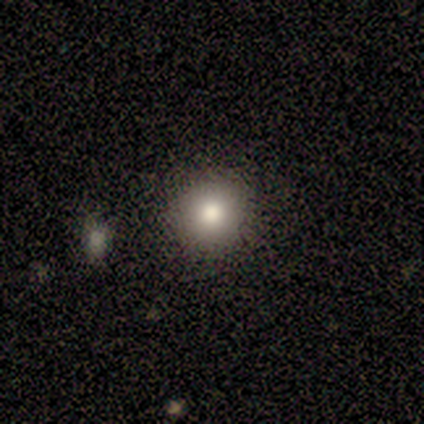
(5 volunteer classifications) Q: Smooth or featured?
A: smooth (100%)
Q: How rounded?
A: round (100%)
Q: Merging?
A: none (100%)